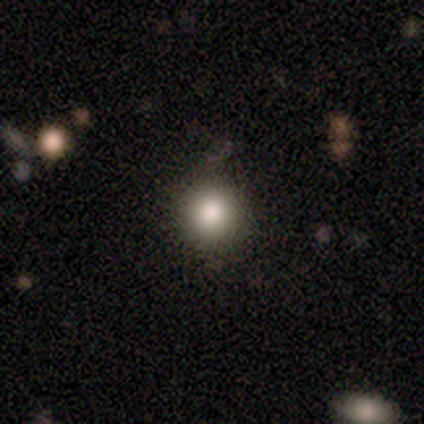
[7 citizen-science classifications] This appears to be a smooth galaxy with no disk features (71%) that is round (100%). Merging: none (67%).